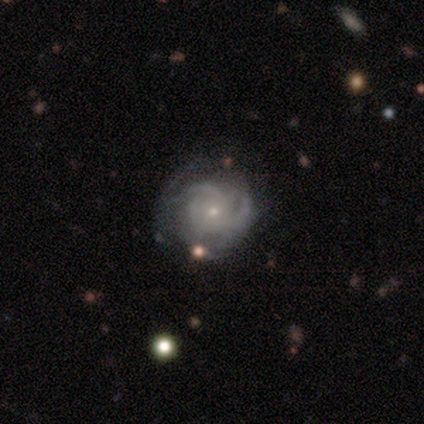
Smooth or featured? 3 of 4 (75%) said featured or disk. Edge-on disk? 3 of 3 (100%) said no. Bar? 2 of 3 (67%) said no. Spiral arms? 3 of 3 (100%) said yes. Spiral winding? 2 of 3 (67%) said medium. Spiral arm count? 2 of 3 (67%) said 3. Bulge size? 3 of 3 (100%) said small. Merging? 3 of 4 (75%) said none.